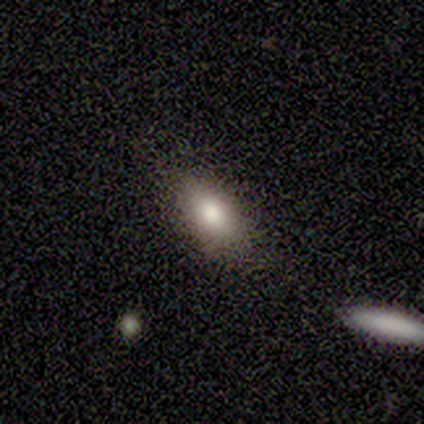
Overall: smooth (100%). How rounded: in between (89%). Merging: none (89%).